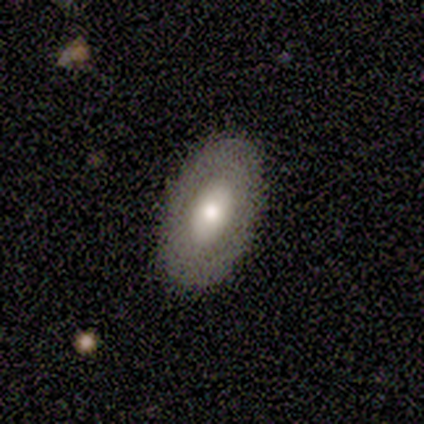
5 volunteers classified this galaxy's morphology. Q: Smooth or featured?
A: featured or disk (60%); runner-up: smooth (40%)
Q: Edge-on disk?
A: no (100%)
Q: Bar?
A: no (67%); runner-up: weak (33%)
Q: Spiral arms?
A: no (100%)
Q: Bulge size?
A: dominant (33%); tied with: moderate (33%); small (33%)
Q: Merging?
A: none (100%)